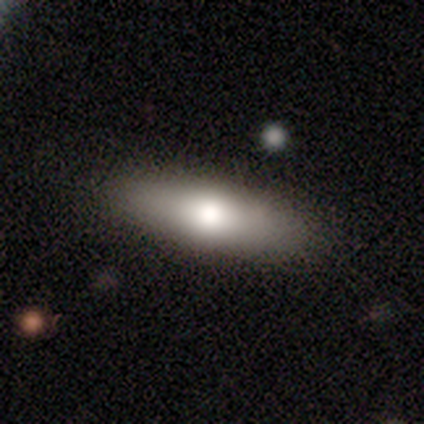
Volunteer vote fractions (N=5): A featured or disk galaxy (60%) viewed edge-on (67%) with a rounded central bulge (100%).

Vote fractions:
- Smooth or featured? featured or disk: 60% / smooth: 40% / star or artifact: 0%
- Edge-on disk? yes: 67% / no: 33%
- Edge-on bulge? rounded: 100% / boxy: 0% / none: 0%
- Merging? none: 100% / minor disturbance: 0% / major disturbance: 0% / merger: 0%